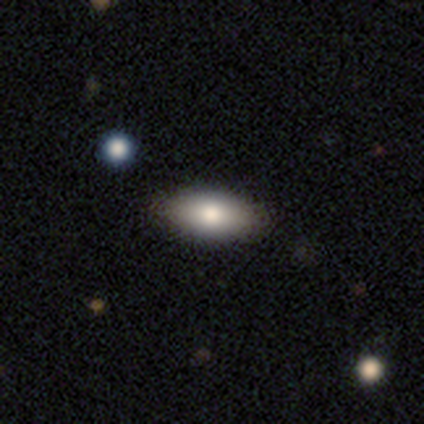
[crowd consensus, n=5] This appears to be a smooth galaxy with no disk features (60%) that is in between round and cigar-shaped (100%). Merging: none (60%).